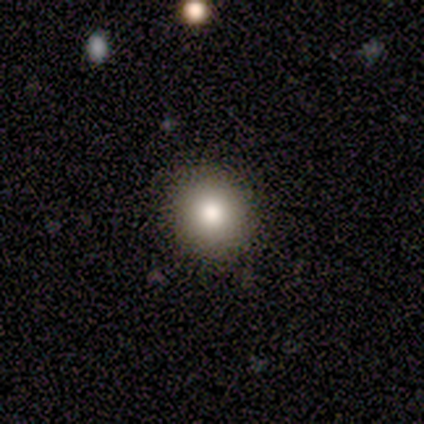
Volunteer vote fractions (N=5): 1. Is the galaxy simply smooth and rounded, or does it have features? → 60% smooth, 20% featured or disk, 20% star or artifact.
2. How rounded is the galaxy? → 100% round, 0% in between, 0% cigar-shaped.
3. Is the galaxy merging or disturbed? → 50% none, 25% minor disturbance, 25% major disturbance, 0% merger.